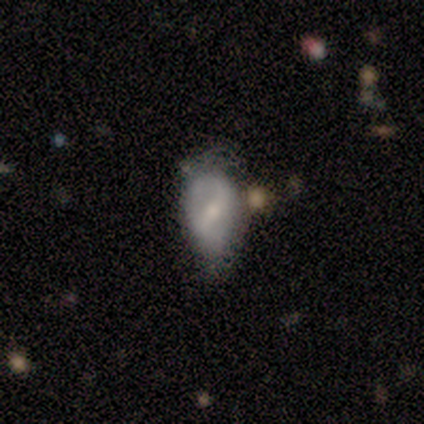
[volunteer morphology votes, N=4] Smooth or featured: featured or disk — 75% (smooth — 25%)
Edge-on disk: no — 100%
Bar: strong — 33% (tied with weak — 33%; no — 33%)
Spiral arms: no — 67% (yes — 33%)
Bulge size: small — 67% (moderate — 33%)
Merging: none — 50% (minor disturbance — 25%)